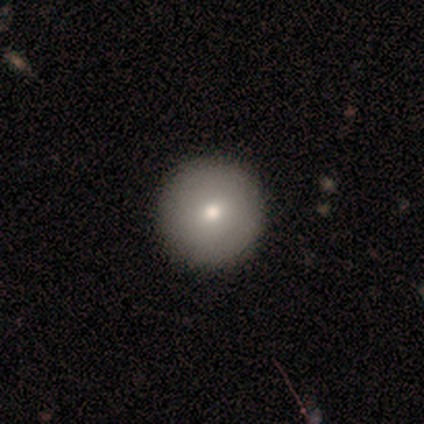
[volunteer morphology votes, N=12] This appears to be a smooth galaxy with no disk features (75%) that is round (100%). Merging: none (100%).